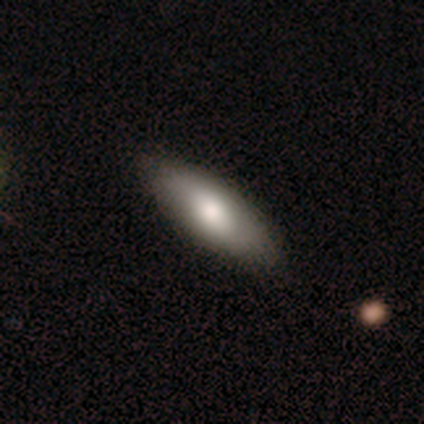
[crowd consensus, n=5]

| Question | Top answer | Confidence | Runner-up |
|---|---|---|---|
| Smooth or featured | smooth | 80% | featured or disk (20%) |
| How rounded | in between | 50% | tied: cigar-shaped (50%) |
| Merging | none | 80% | minor disturbance (20%) |